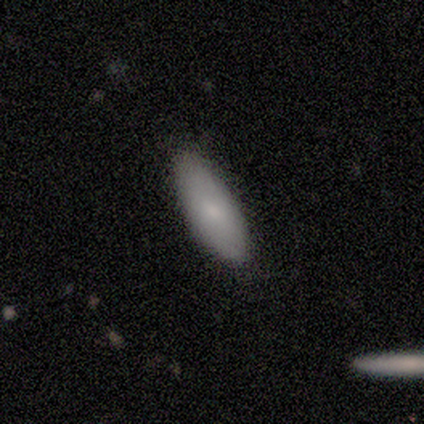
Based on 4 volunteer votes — Smooth or featured?
  - smooth: 75% *
  - featured or disk: 25%
  - star or artifact: 0%
How rounded?
  - in between: 100% *
  - round: 0%
  - cigar-shaped: 0%
Merging?
  - none: 75% *
  - minor disturbance: 25%
  - major disturbance: 0%
  - merger: 0%